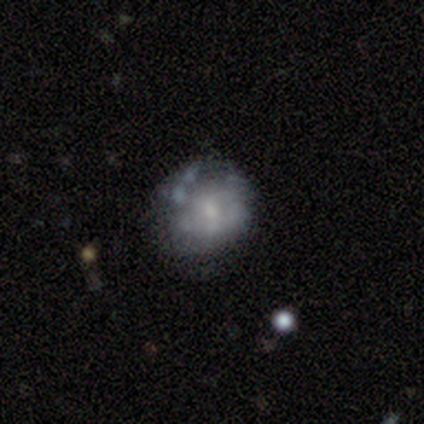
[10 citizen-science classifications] Smooth or featured? smooth (50%)
How rounded? round (80%)
Merging? none (67%)